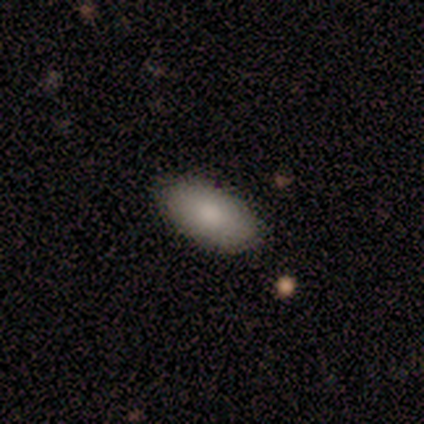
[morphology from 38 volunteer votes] Overall: smooth (84%). How rounded: in between (94%). Merging: none (91%).